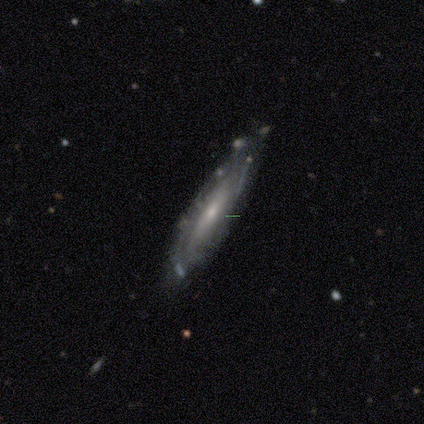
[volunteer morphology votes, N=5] Smooth or featured: featured or disk — 60% (smooth — 40%)
Edge-on disk: no — 100%
Bar: no — 67% (weak — 33%)
Spiral arms: no — 67% (yes — 33%)
Bulge size: moderate — 67% (small — 33%)
Merging: none — 80% (minor disturbance — 20%)